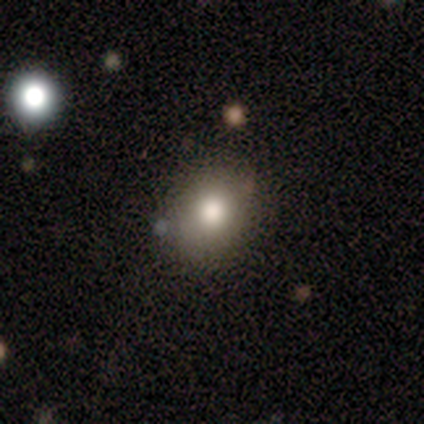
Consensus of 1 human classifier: Smooth or featured? smooth (100%)
How rounded? in between (100%)
Merging? none (100%)